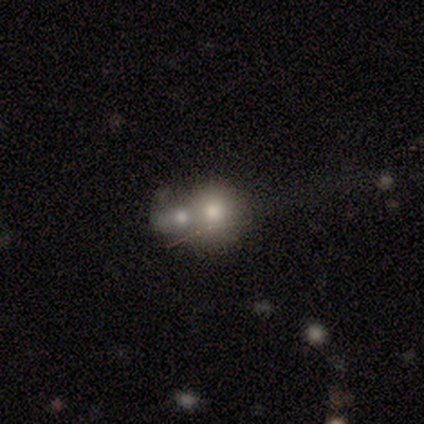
smooth_or_featured: smooth (p=0.80) [alt: star or artifact p=0.20]
how_rounded: round (p=1.00)
merging: merger (p=0.75) [alt: none p=0.25]